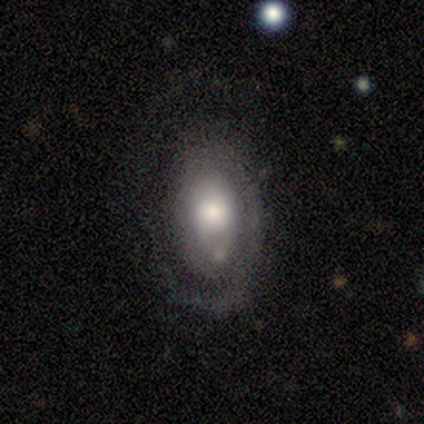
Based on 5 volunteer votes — smooth_or_featured: featured or disk (p=0.80) [alt: smooth p=0.20]
disk_edge_on: no (p=1.00)
bar: no (p=0.75) [alt: weak p=0.25]
has_spiral_arms: yes (p=0.75) [alt: no p=0.25]
spiral_winding: tight (p=0.33) [tied with: medium p=0.33, loose p=0.33]
spiral_arm_count: 1 (p=1.00)
bulge_size: moderate (p=0.75) [alt: small p=0.25]
merging: major disturbance (p=0.60) [alt: none p=0.20]